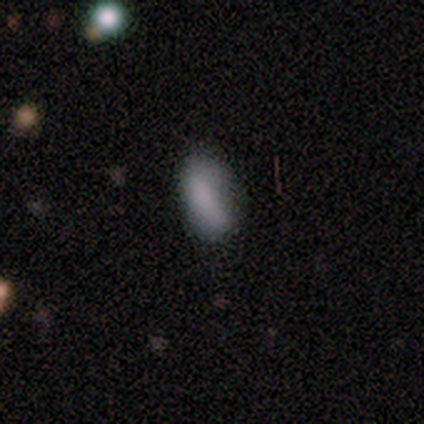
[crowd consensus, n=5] This is clearly a smooth galaxy (100%). How rounded: likely in between (60%). Merging: clearly none (80%).